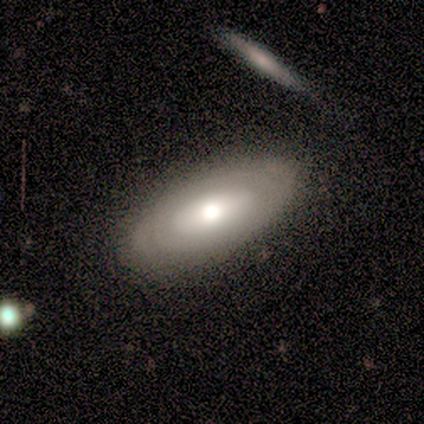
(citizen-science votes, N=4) Smooth or featured?
  - smooth: 50% * (tied)
  - featured or disk: 50% * (tied)
  - star or artifact: 0%
How rounded?
  - in between: 100% *
  - round: 0%
  - cigar-shaped: 0%
Merging?
  - none: 75% *
  - major disturbance: 25%
  - minor disturbance: 0%
  - merger: 0%